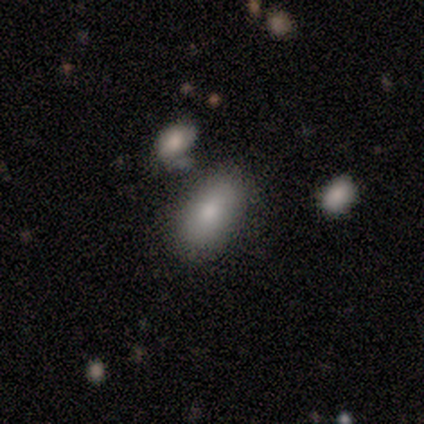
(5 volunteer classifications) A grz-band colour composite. It shows a smooth galaxy with no disk features (80%) that is in between round and cigar-shaped (100%). Merging: none (75%).